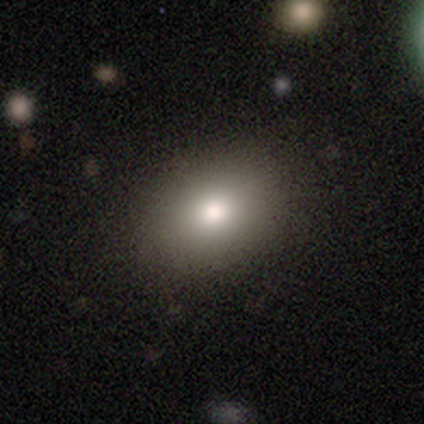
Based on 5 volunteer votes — This appears to be a smooth galaxy with no disk features (40%, tied with featured or disk) that is round (50%, tied with in between). Merging: none (100%).